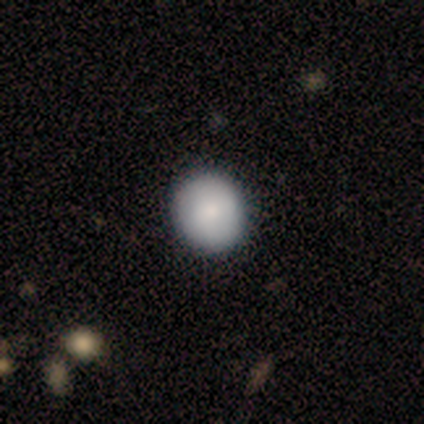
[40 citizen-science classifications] smooth 82%, featured or disk 15%, star or artifact 2%. Down the decision tree: how rounded — round (91%); merging — none (69%).